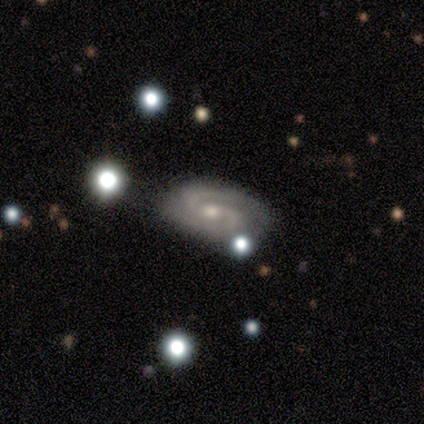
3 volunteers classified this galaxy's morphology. Q: Smooth or featured?
A: featured or disk (100%)
Q: Edge-on disk?
A: no (67%); runner-up: yes (33%)
Q: Bar?
A: weak (50%); tied with: no (50%)
Q: Spiral arms?
A: yes (100%)
Q: Spiral winding?
A: medium (50%); tied with: loose (50%)
Q: Spiral arm count?
A: 2 (100%)
Q: Bulge size?
A: small (100%)
Q: Merging?
A: none (67%); runner-up: minor disturbance (33%)